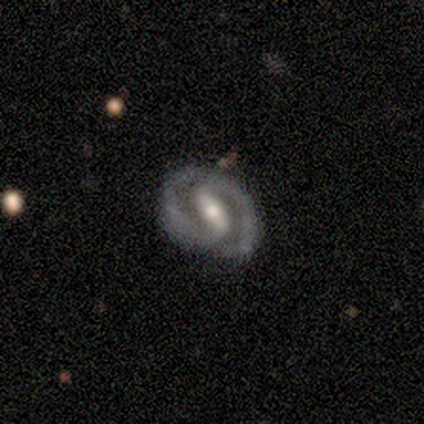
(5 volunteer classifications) Overall: featured or disk (100%). Edge-on disk: no (100%). Bar: strong (60%; weak 20%). Spiral arms: yes (100%). Spiral arm count: 2 (80%). Spiral winding: tight (100%). Bulge size: moderate (80%). Merging: none (100%).